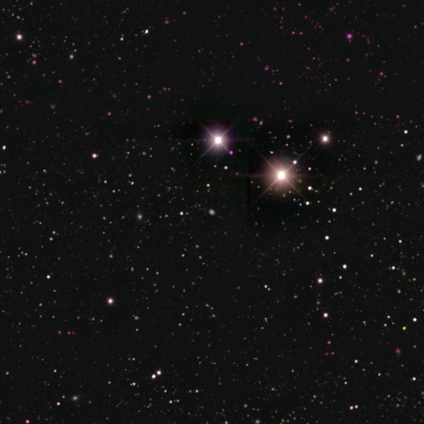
smooth-or-featured: star or artifact: 83% | featured or disk: 17% | smooth: 0%